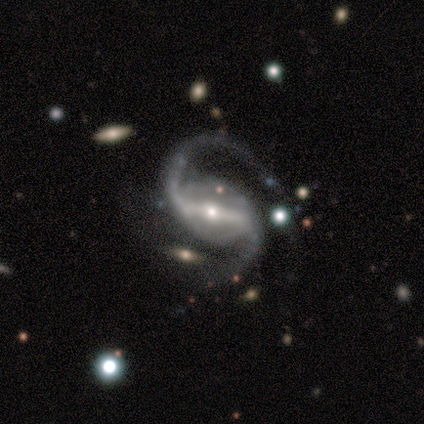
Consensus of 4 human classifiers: A featured or disk galaxy (100%) with a strong bar (50%, tied with weak), 2 (100%) loose (75%) spiral arms (100%) and a small central bulge (100%).

Vote fractions:
- Smooth or featured? featured or disk: 100% / smooth: 0% / star or artifact: 0%
- Edge-on disk? no: 100% / yes: 0%
- Bar? strong: 50% (tied) / weak: 50% (tied) / no: 0%
- Spiral arms? yes: 100% / no: 0%
- Spiral winding? loose: 75% / medium: 25% / tight: 0%
- Spiral arm count? 2: 100% / 1: 0% / 3: 0% / 4: 0% / more than 4: 0% / can't tell: 0%
- Bulge size? small: 100% / dominant: 0% / large: 0% / moderate: 0% / none: 0%
- Merging? none: 100% / minor disturbance: 0% / major disturbance: 0% / merger: 0%